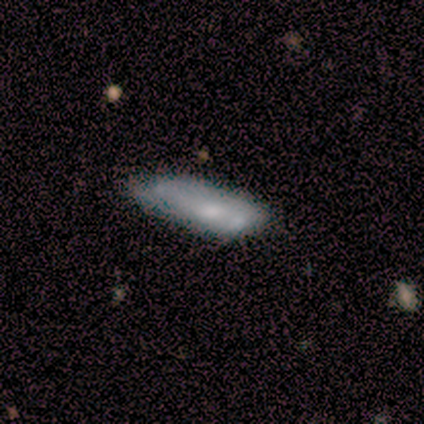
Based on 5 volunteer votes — Morphology: type=smooth (80%); roundness=in between (50%, tied with cigar-shaped); merging=none (80%).